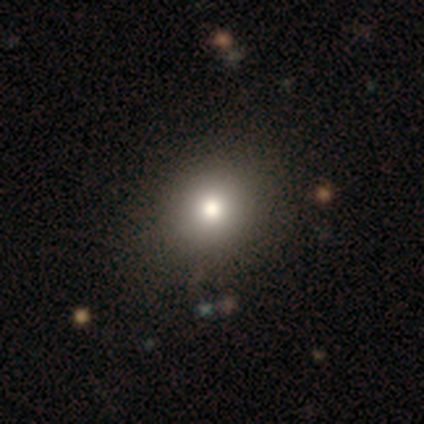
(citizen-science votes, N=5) Q: Smooth or featured?
A: smooth (80%); runner-up: featured or disk (20%)
Q: How rounded?
A: round (75%); runner-up: in between (25%)
Q: Merging?
A: none (80%); runner-up: major disturbance (20%)